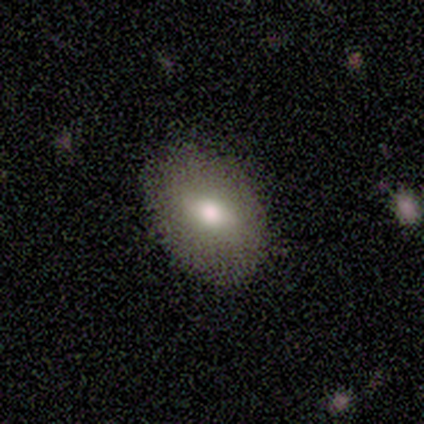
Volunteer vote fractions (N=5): A smooth galaxy with no disk features (80%) that is in between round and cigar-shaped (75%). Merging: none (100%).